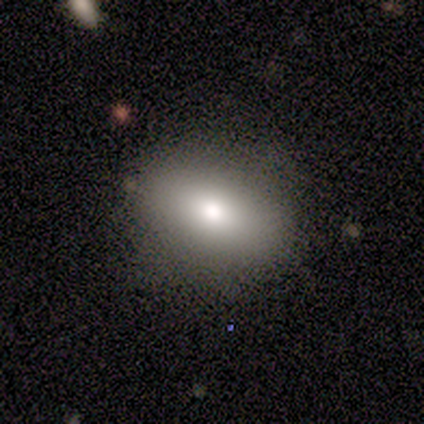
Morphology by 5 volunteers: smooth 100%, featured or disk 0%, star or artifact 0%. Down the decision tree: how rounded — round (80%); merging — none (80%).